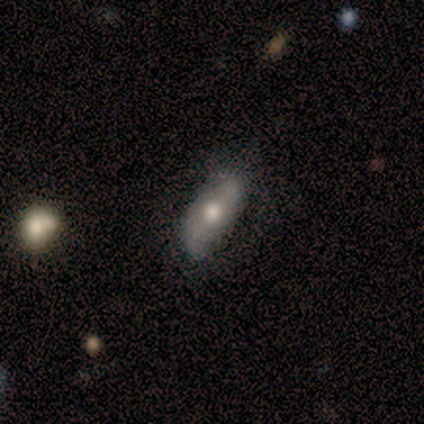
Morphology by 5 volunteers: A smooth galaxy with no disk features (80%) that is in between round and cigar-shaped (100%).

Vote fractions:
- Smooth or featured? smooth: 80% / featured or disk: 20% / star or artifact: 0%
- How rounded? in between: 100% / round: 0% / cigar-shaped: 0%
- Merging? minor disturbance: 60% / none: 40% / major disturbance: 0% / merger: 0%